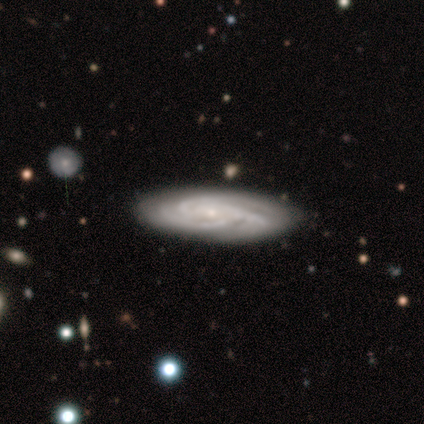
Morphology: type=featured or disk (80%); edge-on=no (92%); bar=no (67%); spiral arms=yes (100%); winding=tight (67%); arm count=3 (67%); bulge=small (78%); merging=none (77%).